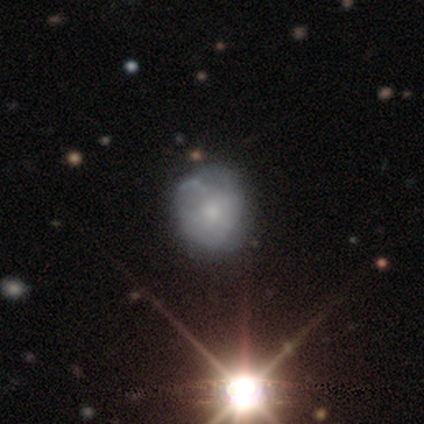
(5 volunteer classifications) smooth-or-featured: smooth: 40% (tied) | star or artifact: 40% (tied) | featured or disk: 20%
  how-rounded: round: 100% | in between: 0% | cigar-shaped: 0%
  merging: none: 67% | minor disturbance: 33% | major disturbance: 0% | merger: 0%